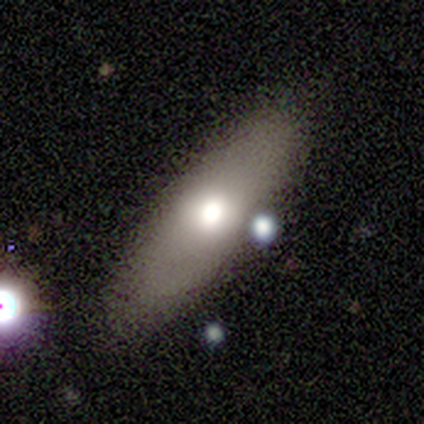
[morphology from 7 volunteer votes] A smooth galaxy with no disk features (86%) that is in between round and cigar-shaped (50%, tied with cigar-shaped).

Vote fractions:
- Smooth or featured? smooth: 86% / star or artifact: 14% / featured or disk: 0%
- How rounded? in between: 50% (tied) / cigar-shaped: 50% (tied) / round: 0%
- Merging? none: 100% / minor disturbance: 0% / major disturbance: 0% / merger: 0%